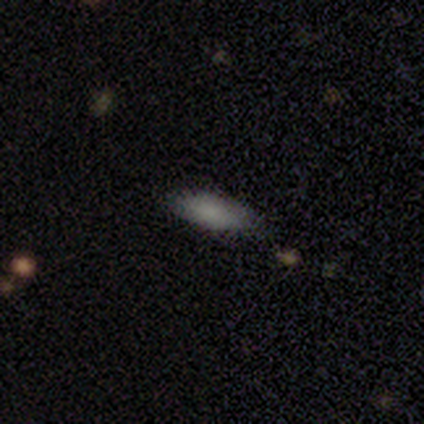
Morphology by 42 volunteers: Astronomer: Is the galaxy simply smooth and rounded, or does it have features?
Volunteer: smooth — 90%.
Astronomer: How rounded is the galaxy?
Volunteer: in between — 53% (runner-up: cigar-shaped, 47%).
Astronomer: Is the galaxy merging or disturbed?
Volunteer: none — 88%.